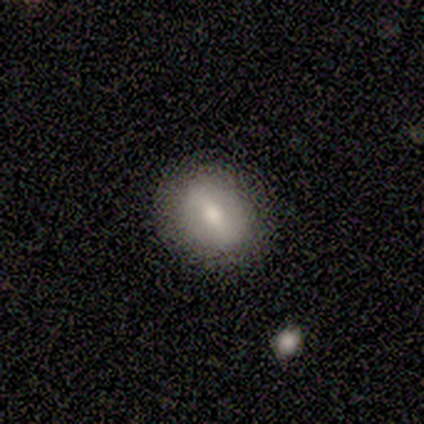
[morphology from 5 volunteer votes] smooth_or_featured: featured or disk (p=0.60) [alt: smooth p=0.20]
disk_edge_on: no (p=0.67) [alt: yes p=0.33]
bar: strong (p=0.50) [tied with: no p=0.50]
has_spiral_arms: no (p=1.00)
bulge_size: moderate (p=0.50) [tied with: small p=0.50]
merging: none (p=0.75) [alt: minor disturbance p=0.25]